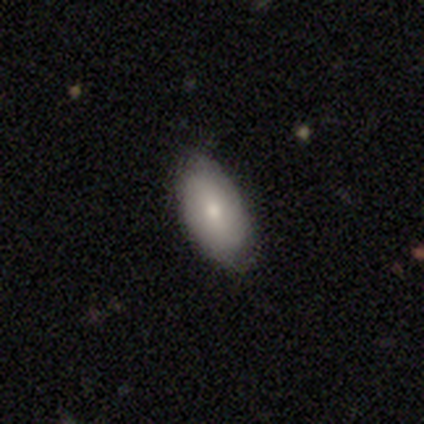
Smooth or featured: smooth — 60% (featured or disk — 20%)
How rounded: in between — 100%
Merging: none — 50% (tied with minor disturbance — 50%)